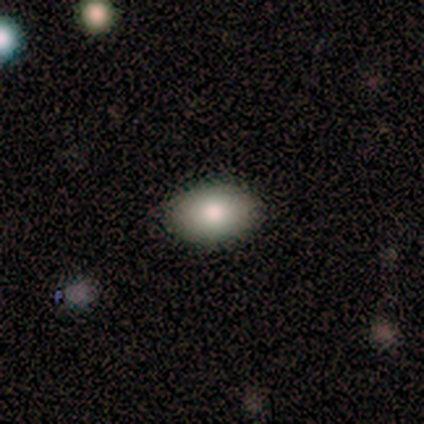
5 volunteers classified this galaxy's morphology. This appears to be a featured or disk galaxy (60%) with no bar (100%), no spiral arms (100%) and a moderate central bulge (100%). Merging: none (100%).